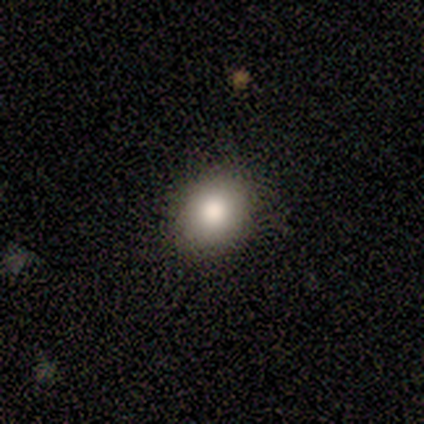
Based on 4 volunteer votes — Q: Smooth or featured?
A: smooth (100%)
Q: How rounded?
A: round (75%); runner-up: in between (25%)
Q: Merging?
A: none (100%)